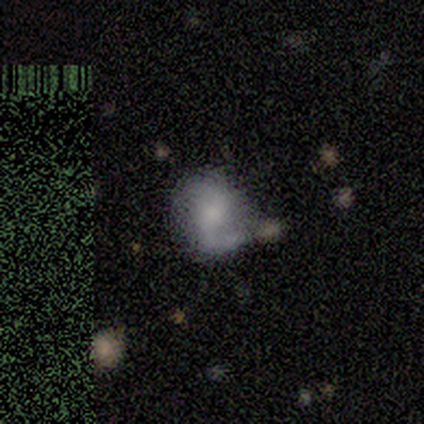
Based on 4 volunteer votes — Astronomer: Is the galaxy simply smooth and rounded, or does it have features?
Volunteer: featured or disk — 100%.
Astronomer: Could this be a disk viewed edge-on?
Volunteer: no — 100%.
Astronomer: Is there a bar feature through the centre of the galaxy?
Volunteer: no — 50%.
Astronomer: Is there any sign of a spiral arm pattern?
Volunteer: yes — 50%, tied with no at 50%.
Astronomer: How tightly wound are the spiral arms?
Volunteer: medium — 100%.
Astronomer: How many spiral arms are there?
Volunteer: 2 — 100%.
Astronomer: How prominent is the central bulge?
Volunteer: small — 75%.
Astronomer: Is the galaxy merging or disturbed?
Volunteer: minor disturbance — 50%.